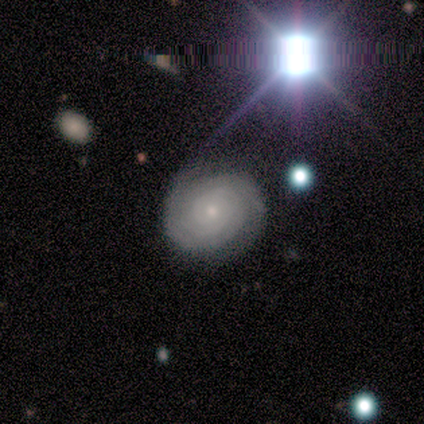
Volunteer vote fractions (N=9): featured or disk 78%, smooth 11%, star or artifact 11%. Down the decision tree: edge-on disk — no (100%); bar — no (100%); spiral arms — yes (100%); spiral arm count — 2 (71%); spiral winding — tight (86%); bulge size — small (100%); merging — none (88%).